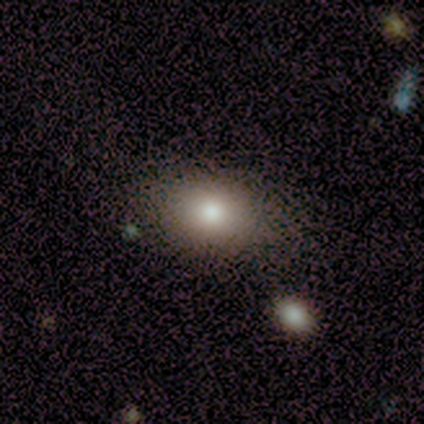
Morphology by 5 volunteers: This appears to be a smooth galaxy with no disk features (80%) that is round (50%, tied with in between). Merging: none (80%).